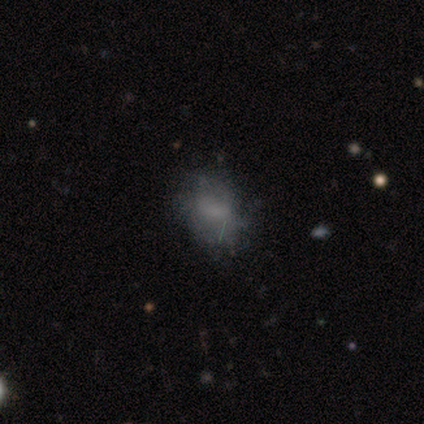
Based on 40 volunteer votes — Volunteers were most divided on "smooth or featured": smooth: 45%, featured or disk: 35%, star or artifact: 20%. Remaining: how rounded — in between (78%); merging — none (47%).